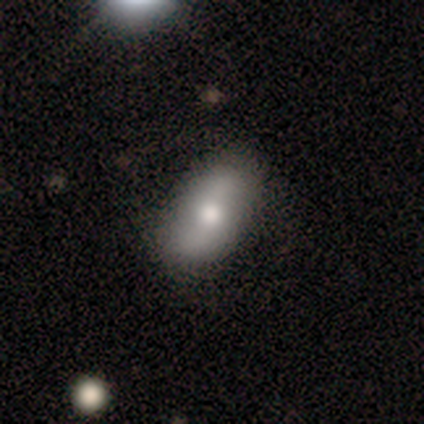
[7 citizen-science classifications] Smooth or featured?
  - featured or disk: 57% *
  - smooth: 29%
  - star or artifact: 14%
Edge-on disk?
  - no: 100% *
  - yes: 0%
Bar?
  - no: 75% *
  - weak: 25%
  - strong: 0%
Spiral arms?
  - yes: 75% *
  - no: 25%
Spiral winding?
  - loose: 100% *
  - tight: 0%
  - medium: 0%
Spiral arm count?
  - 2: 67% *
  - can't tell: 33%
  - 1: 0%
  - 3: 0%
  - 4: 0%
  - more than 4: 0%
Bulge size?
  - moderate: 75% *
  - small: 25%
  - dominant: 0%
  - large: 0%
  - none: 0%
Merging?
  - none: 67% *
  - minor disturbance: 33%
  - major disturbance: 0%
  - merger: 0%